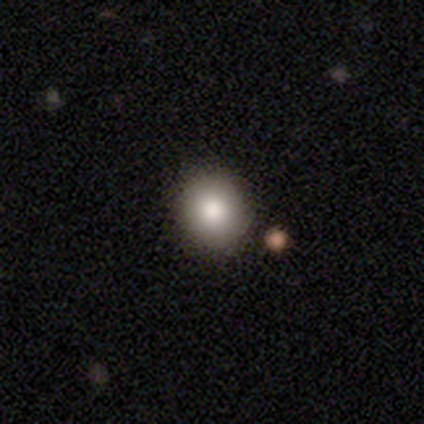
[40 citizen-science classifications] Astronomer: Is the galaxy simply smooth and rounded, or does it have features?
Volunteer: smooth — 85%.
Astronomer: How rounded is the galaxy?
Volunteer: round — 76%.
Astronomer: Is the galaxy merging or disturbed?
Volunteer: none — 81%.